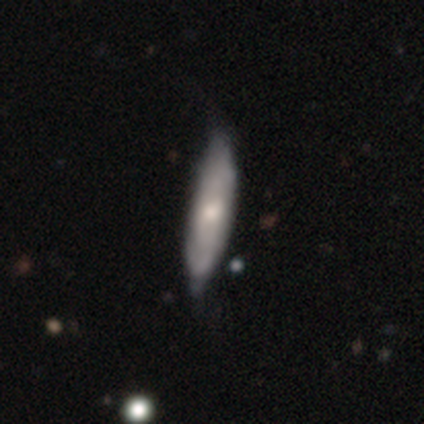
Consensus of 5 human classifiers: smooth 80%, star or artifact 20%, featured or disk 0%. Down the decision tree: how rounded — in between (50%, tied with cigar-shaped); merging — none (50%, tied with minor disturbance).